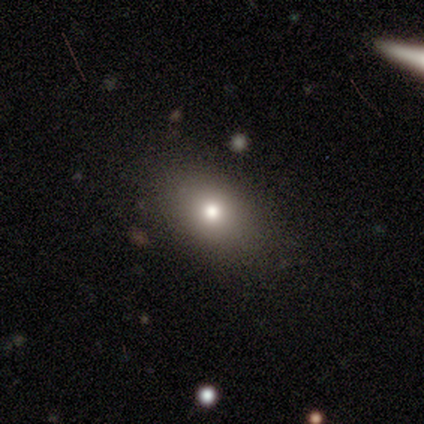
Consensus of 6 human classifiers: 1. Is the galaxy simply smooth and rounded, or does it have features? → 67% smooth, 33% featured or disk, 0% star or artifact.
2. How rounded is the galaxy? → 75% in between, 25% round, 0% cigar-shaped.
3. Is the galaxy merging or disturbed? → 83% none, 17% minor disturbance, 0% major disturbance, 0% merger.